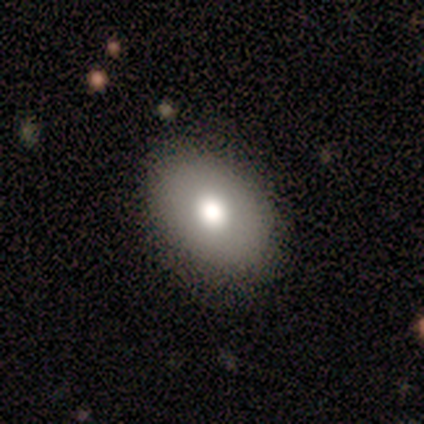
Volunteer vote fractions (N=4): Volunteers were most divided on "smooth or featured" (2-way tie): smooth: 50%, featured or disk: 50%, star or artifact: 0%; "how rounded" (2-way tie): round: 50%, in between: 50%, cigar-shaped: 0%. More confident: merging — none (75%).